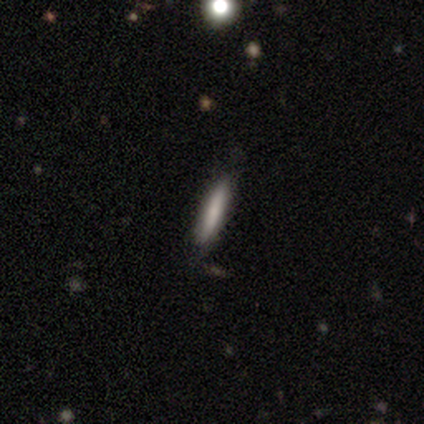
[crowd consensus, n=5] Smooth or featured? 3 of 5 (60%) said smooth. How rounded? 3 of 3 (100%) said cigar-shaped. Merging? 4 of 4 (100%) said none.